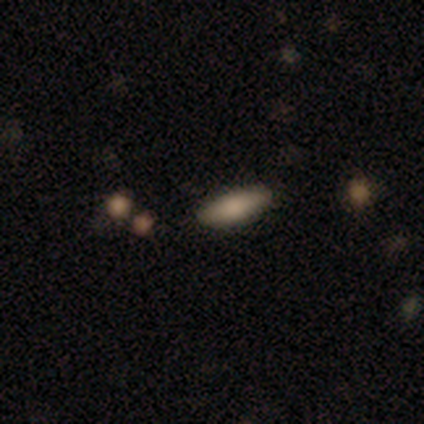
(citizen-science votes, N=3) Q: Smooth or featured?
A: smooth (100%)
Q: How rounded?
A: in between (67%); runner-up: cigar-shaped (33%)
Q: Merging?
A: none (67%); runner-up: merger (33%)